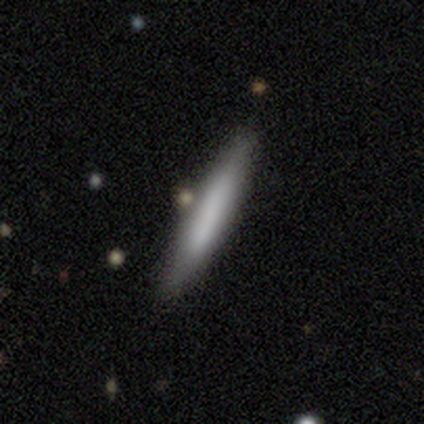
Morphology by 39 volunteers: Smooth or featured? smooth (67%)
How rounded? cigar-shaped (96%)
Merging? none (80%)